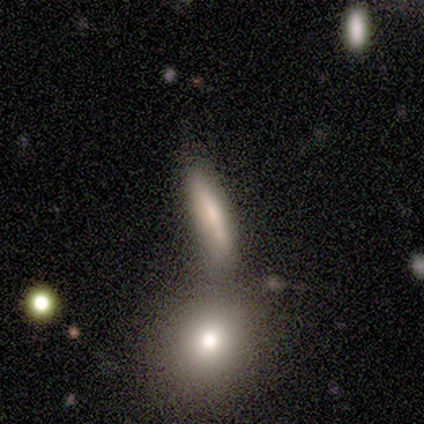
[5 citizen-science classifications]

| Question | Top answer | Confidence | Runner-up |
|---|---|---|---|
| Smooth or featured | smooth | 60% | star or artifact (40%) |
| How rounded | cigar-shaped | 100% | — |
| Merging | none | 67% | minor disturbance (33%) |